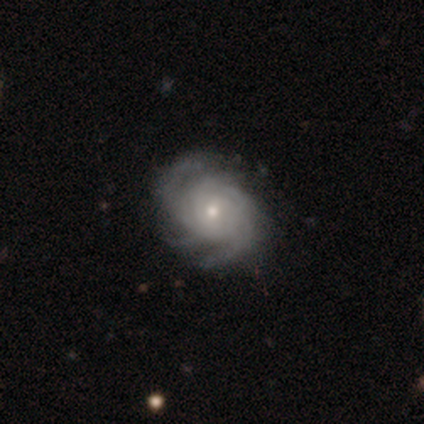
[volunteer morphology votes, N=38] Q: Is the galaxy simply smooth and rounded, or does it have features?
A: featured or disk — 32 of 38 (84%).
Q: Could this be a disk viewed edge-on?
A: no — 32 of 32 (100%).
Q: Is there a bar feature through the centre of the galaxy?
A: no — 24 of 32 (75%).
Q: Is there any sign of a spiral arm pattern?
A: yes — 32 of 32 (100%).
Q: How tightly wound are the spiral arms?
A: tight — 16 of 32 (50%).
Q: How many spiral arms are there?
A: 4 — 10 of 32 (31%, tied with can't tell).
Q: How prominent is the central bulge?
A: moderate — 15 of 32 (47%, tied with small).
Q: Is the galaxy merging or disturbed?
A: none — 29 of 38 (76%).